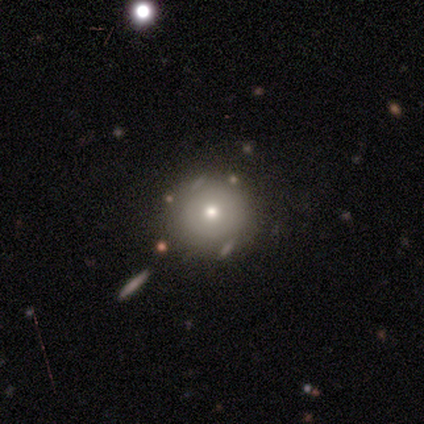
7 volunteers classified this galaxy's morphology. Smooth or featured?
  - smooth: 71% *
  - featured or disk: 14%
  - star or artifact: 14%
How rounded?
  - round: 100% *
  - in between: 0%
  - cigar-shaped: 0%
Merging?
  - none: 83% *
  - major disturbance: 17%
  - minor disturbance: 0%
  - merger: 0%